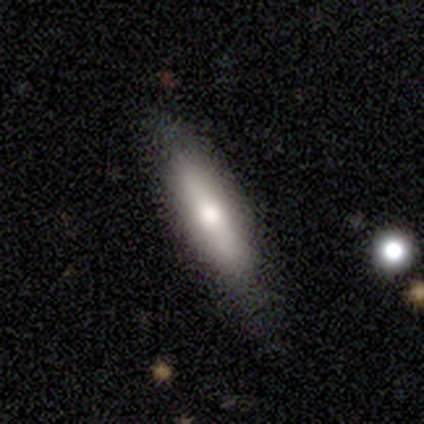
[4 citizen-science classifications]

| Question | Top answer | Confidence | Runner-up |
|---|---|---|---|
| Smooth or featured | smooth | 75% | featured or disk (25%) |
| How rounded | in between | 67% | cigar-shaped (33%) |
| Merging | none | 75% | minor disturbance (25%) |